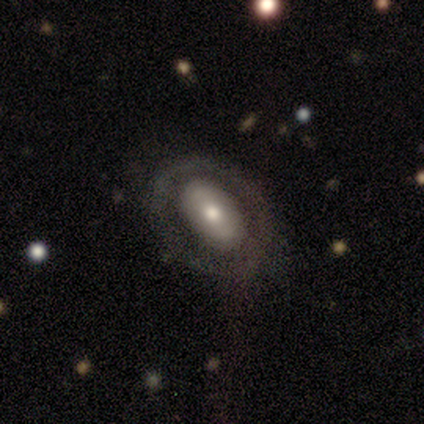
Morphology: type=smooth (60%); roundness=in between (100%); merging=none (80%).